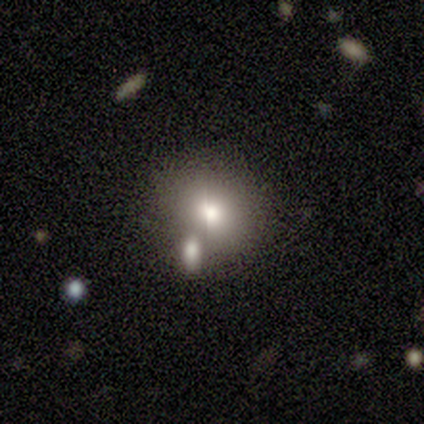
smooth 44%, star or artifact 33%, featured or disk 22%. Down the decision tree: how rounded — in between (75%); merging — none (67%).